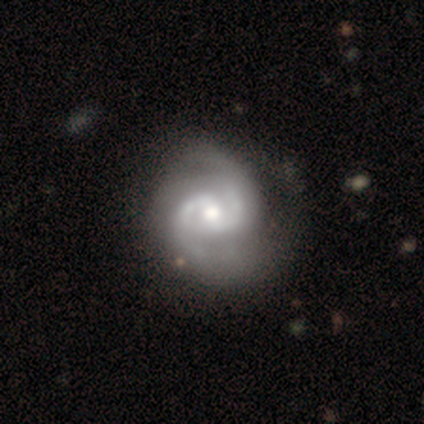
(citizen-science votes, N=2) Q: Smooth or featured?
A: featured or disk (100%)
Q: Edge-on disk?
A: no (100%)
Q: Bar?
A: strong (50%); tied with: weak (50%)
Q: Spiral arms?
A: yes (100%)
Q: Spiral winding?
A: medium (100%)
Q: Spiral arm count?
A: 2 (50%); tied with: can't tell (50%)
Q: Bulge size?
A: moderate (50%); tied with: small (50%)
Q: Merging?
A: none (50%); tied with: minor disturbance (50%)